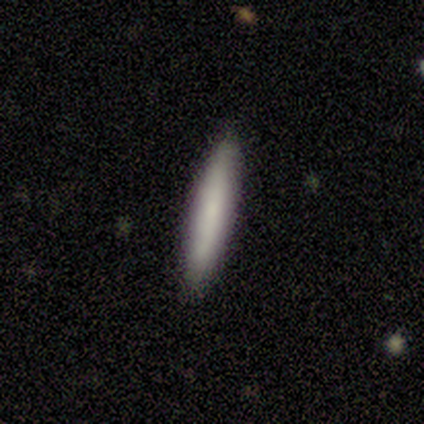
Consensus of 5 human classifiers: Smooth or featured? 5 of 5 (100%) said smooth. How rounded? 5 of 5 (100%) said cigar-shaped. Merging? 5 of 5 (100%) said none.